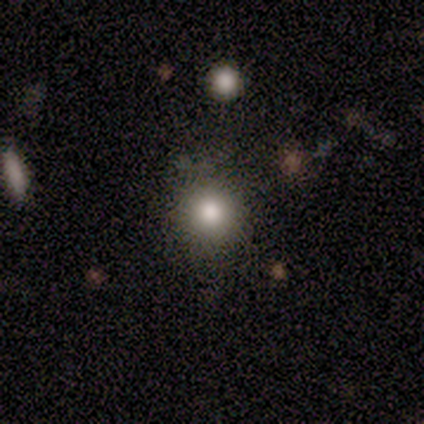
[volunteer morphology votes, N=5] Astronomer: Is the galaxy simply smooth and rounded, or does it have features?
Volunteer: smooth — 60% (runner-up: star or artifact, 40%).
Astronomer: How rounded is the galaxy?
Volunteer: round — 100%.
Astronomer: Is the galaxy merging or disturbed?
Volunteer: none — 100%.